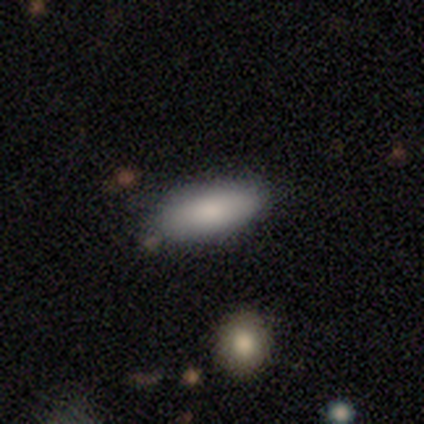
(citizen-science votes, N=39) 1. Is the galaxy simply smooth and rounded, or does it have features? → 90% smooth, 5% featured or disk, 5% star or artifact.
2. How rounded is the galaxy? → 74% in between, 26% cigar-shaped, 0% round.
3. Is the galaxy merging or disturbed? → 78% none, 14% minor disturbance, 8% major disturbance, 0% merger.